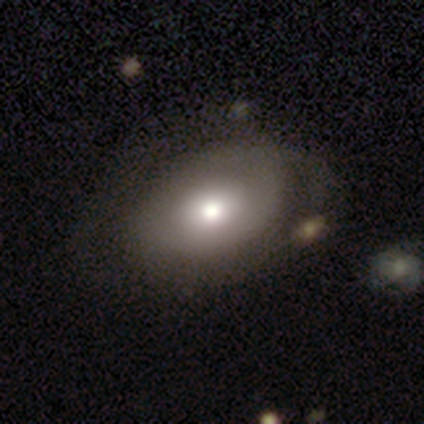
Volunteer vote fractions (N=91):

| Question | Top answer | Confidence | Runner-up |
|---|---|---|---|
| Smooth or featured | smooth | 62% | featured or disk (25%) |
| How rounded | in between | 80% | round (20%) |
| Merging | none | 56% | minor disturbance (28%) |